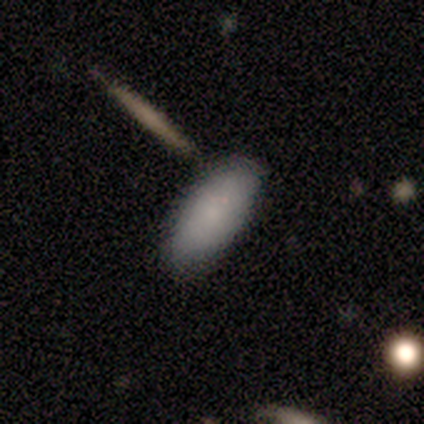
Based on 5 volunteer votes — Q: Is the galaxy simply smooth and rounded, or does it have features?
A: smooth — 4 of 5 (80%).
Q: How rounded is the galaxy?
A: in between — 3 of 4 (75%).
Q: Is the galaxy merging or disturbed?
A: none — 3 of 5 (60%).